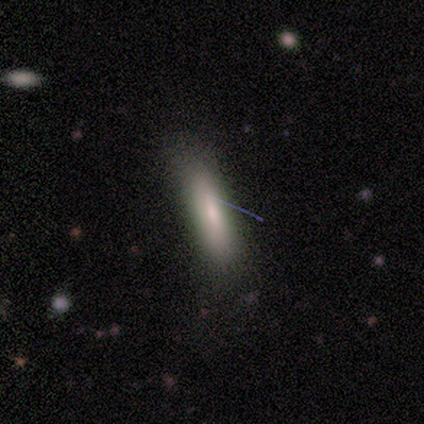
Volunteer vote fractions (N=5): Overall: smooth (80%). How rounded: cigar-shaped (100%). Merging: none (100%).